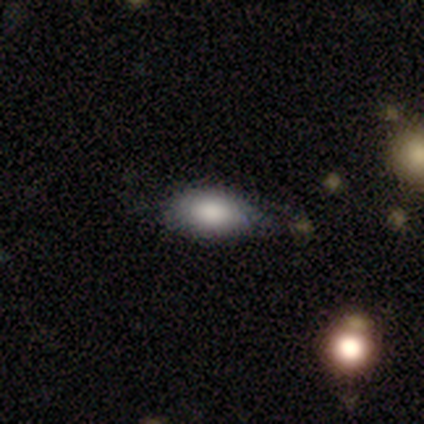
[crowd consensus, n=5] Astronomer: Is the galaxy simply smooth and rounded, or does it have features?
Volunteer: smooth — 80%.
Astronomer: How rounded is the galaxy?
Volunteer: in between — 75%.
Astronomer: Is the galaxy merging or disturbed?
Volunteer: none — 80%.